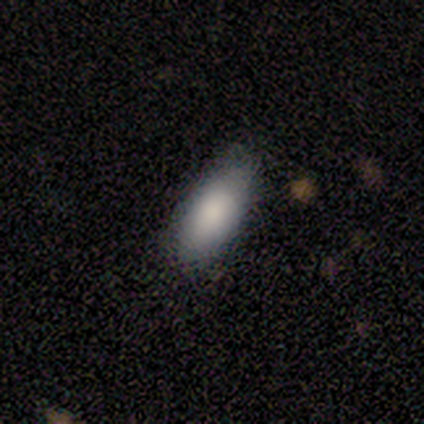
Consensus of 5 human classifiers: Morphology: type=smooth (100%); roundness=in between (100%); merging=none (80%).